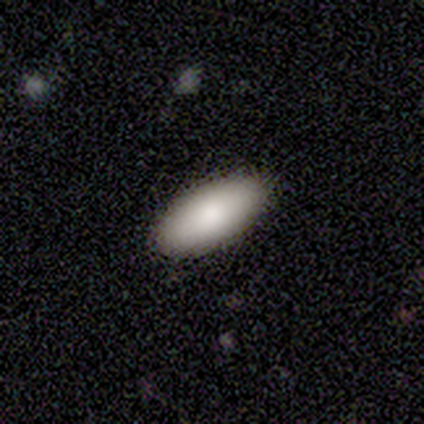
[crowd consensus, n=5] Smooth or featured? 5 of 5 (100%) said smooth. How rounded? 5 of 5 (100%) said in between. Merging? 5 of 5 (100%) said none.